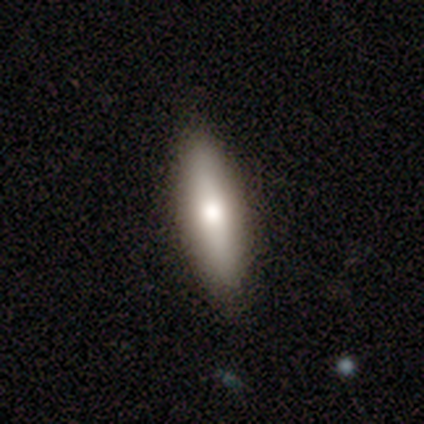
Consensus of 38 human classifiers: Smooth or featured? smooth (74%)
How rounded? cigar-shaped (64%)
Merging? none (100%)